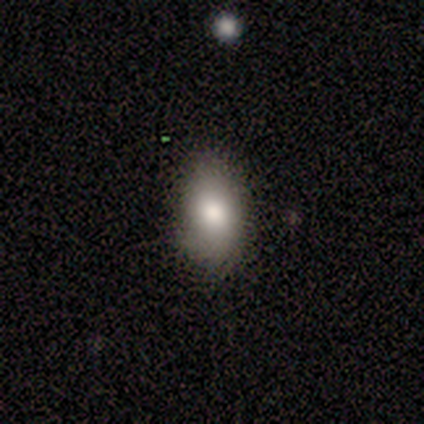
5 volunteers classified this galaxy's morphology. Overall: featured or disk (60%; smooth 40%). Edge-on disk: no (100%). Bar: no (100%). Spiral arms: no (100%). Bulge size: large (67%; moderate 33%). Merging: none (60%; minor disturbance 40%).